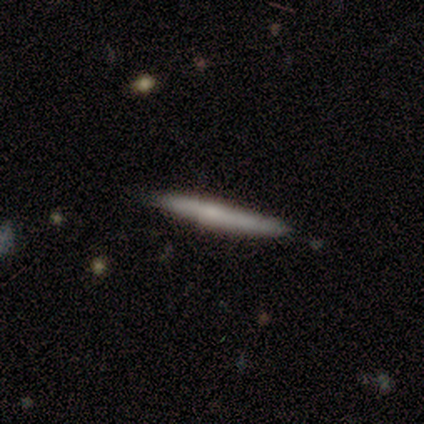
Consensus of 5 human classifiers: featured or disk 60%, smooth 40%, star or artifact 0%. Down the decision tree: edge-on disk — yes (100%); edge-on bulge — boxy (33%, tied with none and rounded); merging — none (80%).